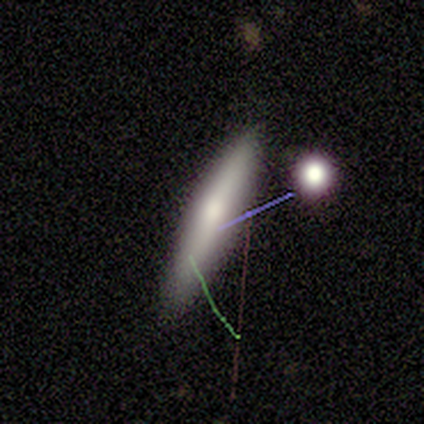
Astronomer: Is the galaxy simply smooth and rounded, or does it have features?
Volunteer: smooth — 100%.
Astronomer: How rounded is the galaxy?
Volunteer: cigar-shaped — 80%.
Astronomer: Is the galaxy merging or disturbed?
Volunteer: none — 100%.